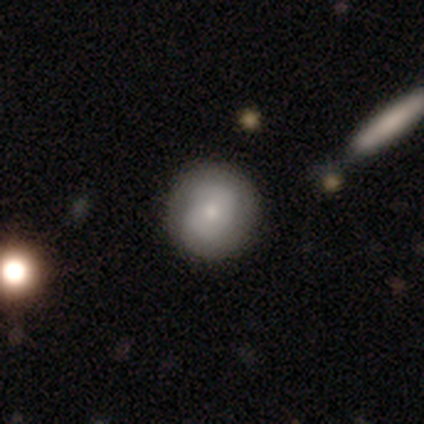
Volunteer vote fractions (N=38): Smooth or featured? smooth (50%)
How rounded? round (100%)
Merging? none (65%)